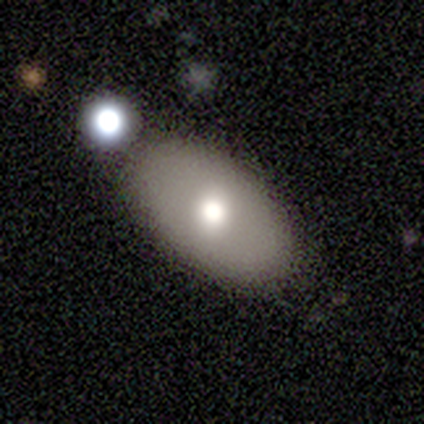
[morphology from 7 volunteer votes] A smooth galaxy with no disk features (71%) that is in between round and cigar-shaped (100%).

Vote fractions:
- Smooth or featured? smooth: 71% / featured or disk: 29% / star or artifact: 0%
- How rounded? in between: 100% / round: 0% / cigar-shaped: 0%
- Merging? none: 71% / minor disturbance: 14% / merger: 14% / major disturbance: 0%